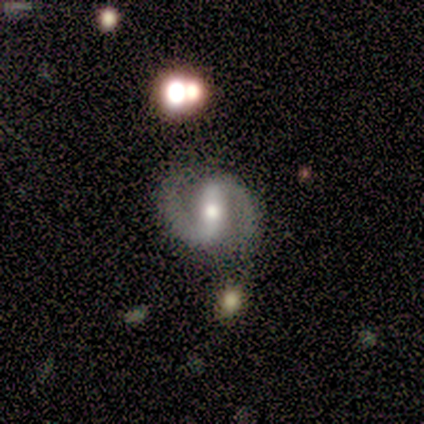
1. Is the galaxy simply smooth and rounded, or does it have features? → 100% featured or disk, 0% smooth, 0% star or artifact.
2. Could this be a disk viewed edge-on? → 100% no, 0% yes.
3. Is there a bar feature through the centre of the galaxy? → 60% strong, 40% weak, 0% no.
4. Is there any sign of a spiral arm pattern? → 100% yes, 0% no.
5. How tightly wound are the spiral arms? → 100% medium, 0% tight, 0% loose.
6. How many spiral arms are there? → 100% 2, 0% 1, 0% 3, 0% 4, 0% more than 4, 0% can't tell.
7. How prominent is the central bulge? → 60% small, 40% moderate, 0% dominant, 0% large, 0% none.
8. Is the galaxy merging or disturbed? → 80% none, 20% minor disturbance, 0% major disturbance, 0% merger.